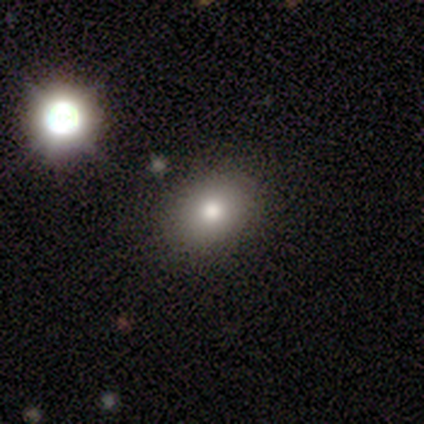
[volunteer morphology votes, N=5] Volunteers were most divided on "smooth or featured" (2-way tie): smooth: 40%, star or artifact: 40%, featured or disk: 20%. More confident: how rounded — in between (100%); merging — none (100%).